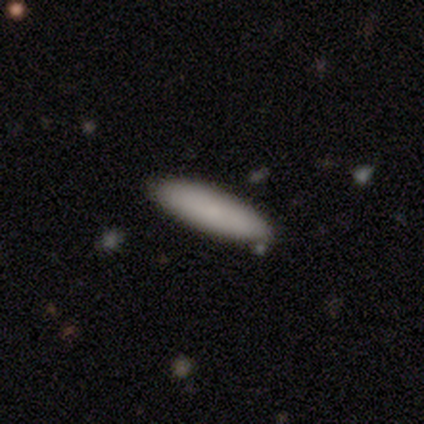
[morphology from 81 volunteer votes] smooth 81%, featured or disk 12%, star or artifact 6%. Down the decision tree: how rounded — cigar-shaped (58%); merging — none (57%).